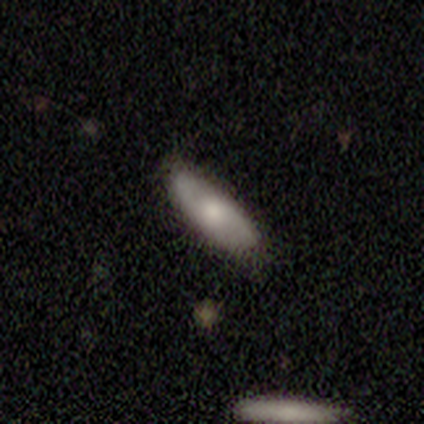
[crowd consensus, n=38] Smooth or featured? 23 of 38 (61%) said smooth. How rounded? 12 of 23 (52%) said in between. Merging? 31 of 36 (86%) said none.